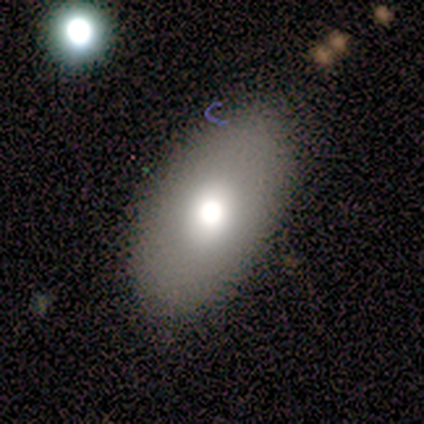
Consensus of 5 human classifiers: Q: Smooth or featured?
A: smooth (80%); runner-up: star or artifact (20%)
Q: How rounded?
A: in between (75%); runner-up: round (25%)
Q: Merging?
A: none (100%)